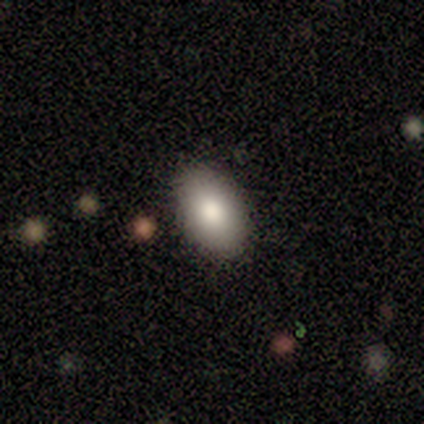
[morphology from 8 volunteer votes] Smooth or featured? 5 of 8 (62%) said smooth. How rounded? 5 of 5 (100%) said in between. Merging? 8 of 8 (100%) said none.